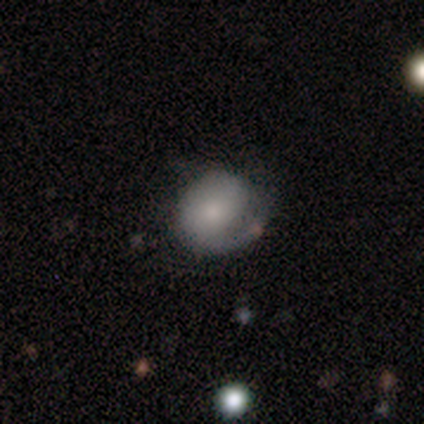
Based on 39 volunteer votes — Smooth or featured: featured or disk — 56% (smooth — 36%)
Edge-on disk: no — 95% (yes — 5%)
Bar: no — 67% (weak — 19%)
Spiral arms: yes — 76% (no — 24%)
Spiral winding: loose — 56% (medium — 25%)
Spiral arm count: 1 — 81% (can't tell — 12%)
Bulge size: moderate — 43% (small — 33%)
Merging: none — 47% (minor disturbance — 31%)